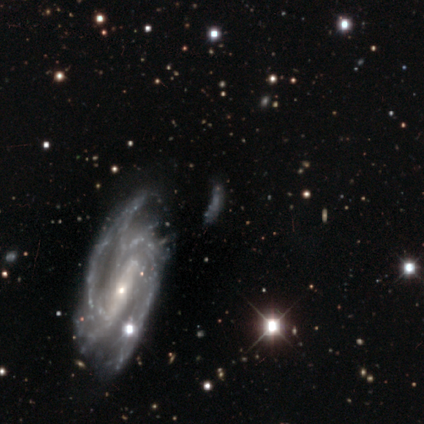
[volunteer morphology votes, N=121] smooth-or-featured: featured or disk: 74% | smooth: 13% | star or artifact: 13%
  disk-edge-on: no: 91% | yes: 9%
    bar: strong: 42% | no: 37% | weak: 21%
    has-spiral-arms: yes: 79% | no: 21%
      spiral-winding: tight: 47% | medium: 44% | loose: 9%
      spiral-arm-count: 2: 41% | can't tell: 22% | 4: 16% | 3: 14% | more than 4: 8% | 1: 0%
    bulge-size: small: 64% | none: 19% | moderate: 16% | large: 1% | dominant: 0%
  merging: none: 52% | minor disturbance: 23% | major disturbance: 22% | merger: 3%